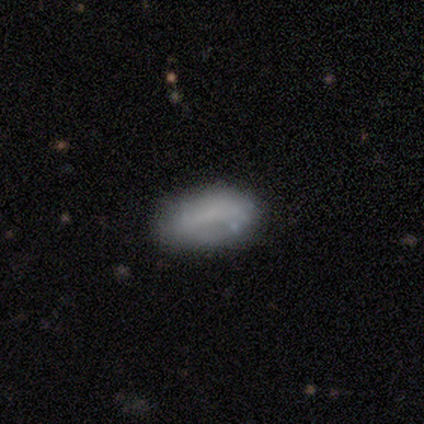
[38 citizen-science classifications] smooth 58%, featured or disk 34%, star or artifact 8%. Down the decision tree: how rounded — in between (95%); merging — none (71%).